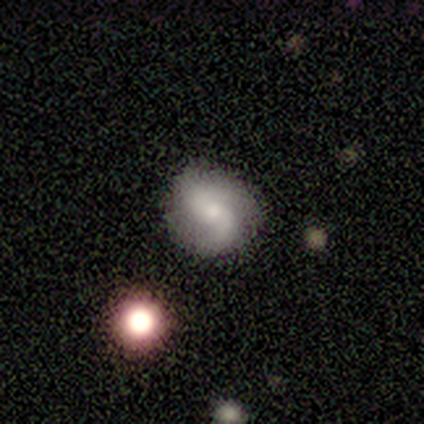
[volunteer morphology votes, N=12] Smooth or featured? featured or disk (92%)
Edge-on disk? no (100%)
Bar? no (55%)
Spiral arms? yes (91%)
Spiral winding? loose (50%)
Spiral arm count? 2 (90%)
Bulge size? moderate (64%)
Merging? none (92%)